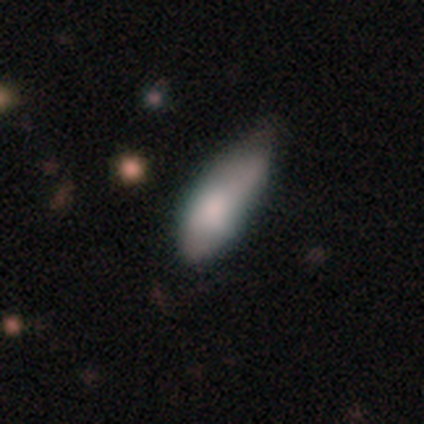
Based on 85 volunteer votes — Smooth or featured? 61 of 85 (72%) said smooth. How rounded? 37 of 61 (61%) said in between. Merging? 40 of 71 (56%) said minor disturbance.